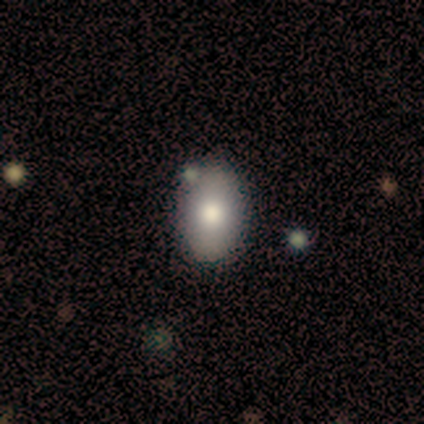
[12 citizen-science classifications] Q: Smooth or featured?
A: smooth (83%); runner-up: featured or disk (17%)
Q: How rounded?
A: in between (80%); runner-up: round (20%)
Q: Merging?
A: none (83%); runner-up: minor disturbance (17%)